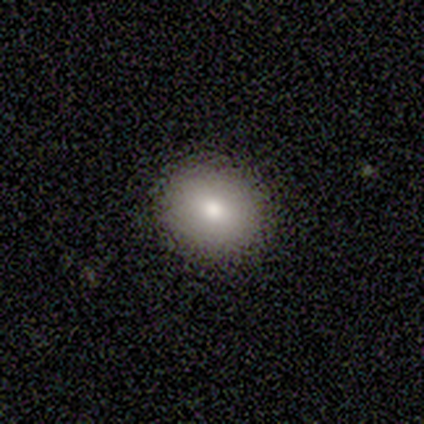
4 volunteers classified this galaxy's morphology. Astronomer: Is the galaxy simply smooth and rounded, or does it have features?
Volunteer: smooth — 75%.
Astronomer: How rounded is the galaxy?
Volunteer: round — 100%.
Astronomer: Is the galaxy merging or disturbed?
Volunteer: none — 100%.